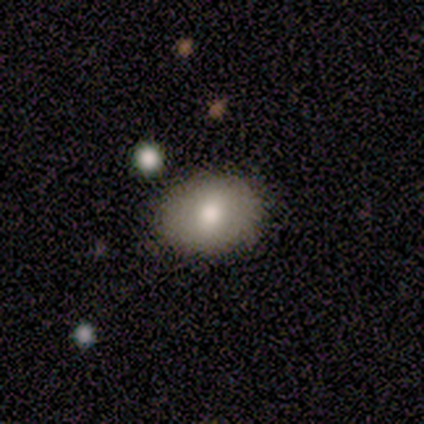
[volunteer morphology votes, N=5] A smooth galaxy with no disk features (100%) that is in between round and cigar-shaped (60%).

Vote fractions:
- Smooth or featured? smooth: 100% / featured or disk: 0% / star or artifact: 0%
- How rounded? in between: 60% / round: 40% / cigar-shaped: 0%
- Merging? none: 100% / minor disturbance: 0% / major disturbance: 0% / merger: 0%